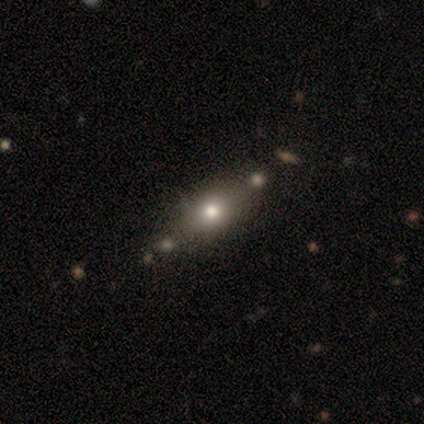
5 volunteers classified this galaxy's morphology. Smooth or featured: smooth — 60% (featured or disk — 40%)
How rounded: cigar-shaped — 100%
Merging: none — 100%